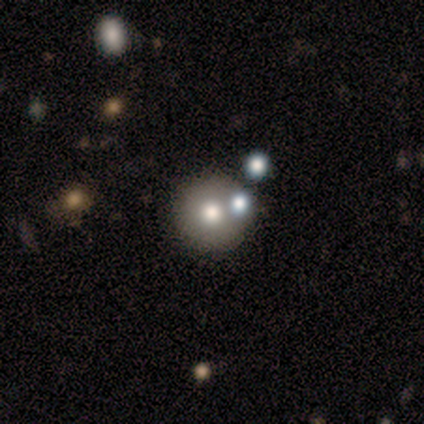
A smooth galaxy with no disk features (60%) that is round (83%). Merging: none (71%).